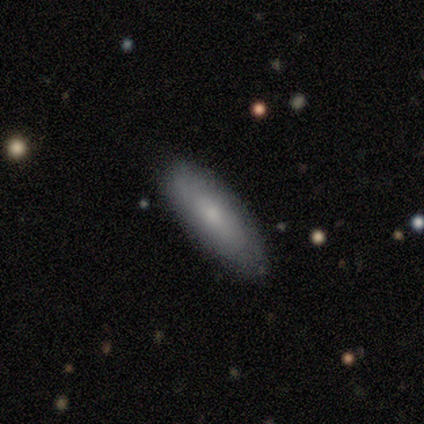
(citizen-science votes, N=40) Morphology: type=smooth (68%); roundness=in between (59%); merging=none (82%).